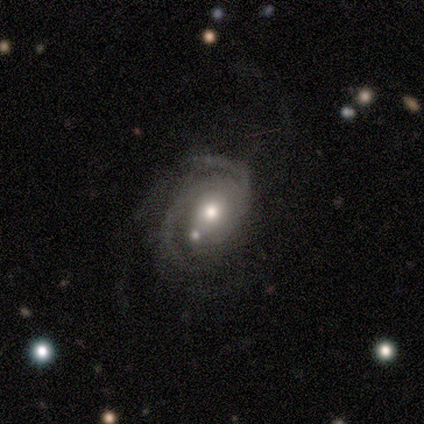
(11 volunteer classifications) Morphology: type=featured or disk (100%); edge-on=no (100%); bar=no (73%); spiral arms=yes (91%); winding=medium (50%); arm count=2 (90%); bulge=moderate (73%); merging=none (36%).